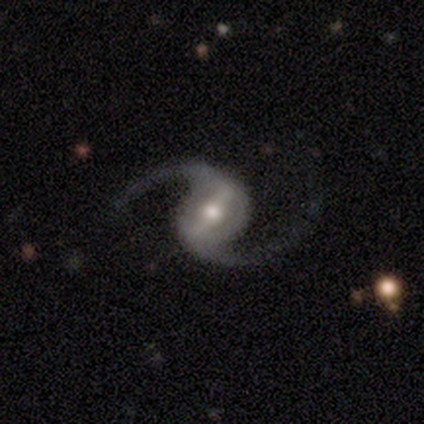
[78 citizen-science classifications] Q: Smooth or featured?
A: featured or disk (96%); runner-up: smooth (3%)
Q: Edge-on disk?
A: no (99%); runner-up: yes (1%)
Q: Bar?
A: strong (57%); runner-up: weak (35%)
Q: Spiral arms?
A: yes (100%)
Q: Spiral winding?
A: loose (77%); runner-up: medium (23%)
Q: Spiral arm count?
A: 2 (100%)
Q: Bulge size?
A: moderate (74%); runner-up: small (19%)
Q: Merging?
A: none (47%); runner-up: minor disturbance (1%)